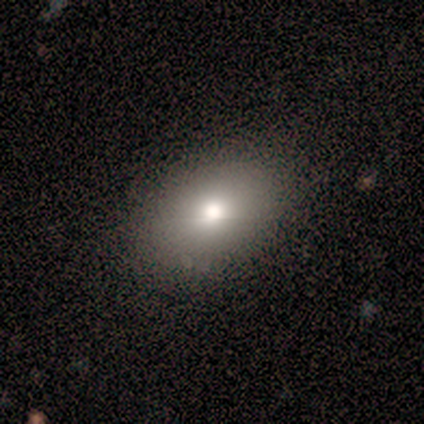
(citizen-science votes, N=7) Smooth or featured: smooth — 86% (featured or disk — 14%)
How rounded: in between — 83% (round — 17%)
Merging: none — 86% (minor disturbance — 14%)